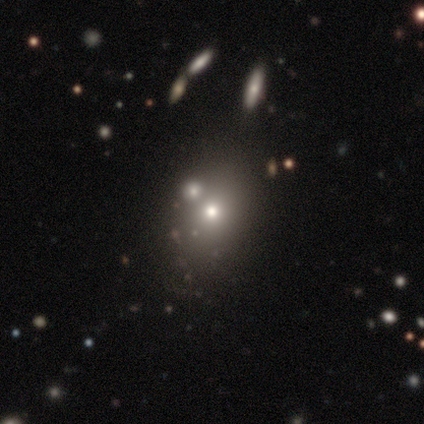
Q: Smooth or featured?
A: smooth (62%); runner-up: star or artifact (22%)
Q: How rounded?
A: in between (52%); runner-up: round (43%)
Q: Merging?
A: none (76%); runner-up: major disturbance (10%)